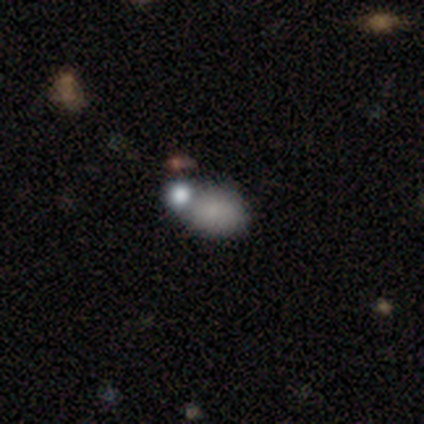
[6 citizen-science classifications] This appears to be a smooth galaxy with no disk features (50%) that is in between round and cigar-shaped (100%). Merging: none (75%).